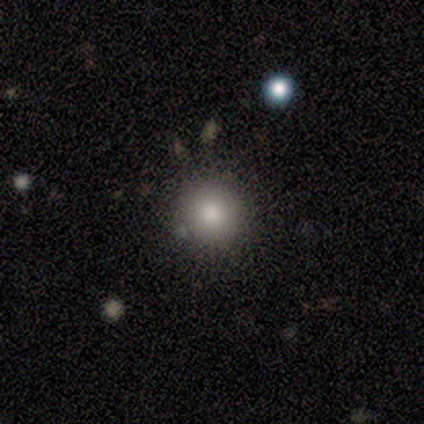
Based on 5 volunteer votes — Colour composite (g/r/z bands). It shows a smooth galaxy with no disk features (40%, tied with star or artifact) that is round (100%). Merging: none (67%).